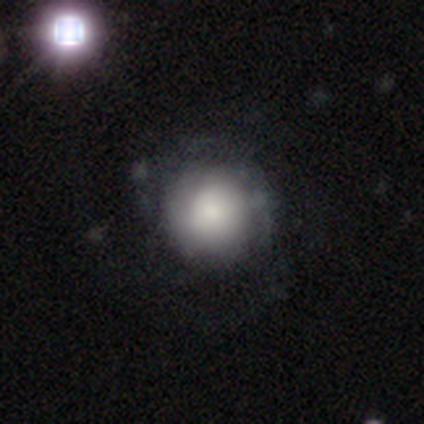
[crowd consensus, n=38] A smooth galaxy with no disk features (47%) that is round (100%).

Vote fractions:
- Smooth or featured? smooth: 47% / featured or disk: 45% / star or artifact: 8%
- How rounded? round: 100% / in between: 0% / cigar-shaped: 0%
- Merging? none: 37% / major disturbance: 14% / minor disturbance: 11% / merger: 3%